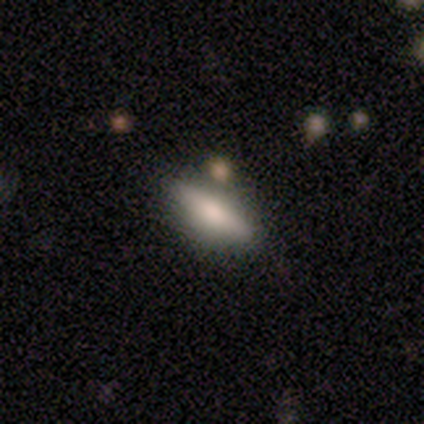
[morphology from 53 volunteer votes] Overall: smooth (55%; featured or disk 40%). How rounded: in between (52%; cigar-shaped 48%). Merging: none (76%).